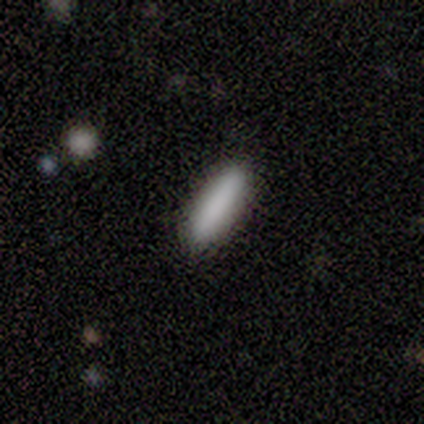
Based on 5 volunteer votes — smooth-or-featured: smooth: 100% | featured or disk: 0% | star or artifact: 0%
  how-rounded: in between: 60% | cigar-shaped: 40% | round: 0%
  merging: none: 100% | minor disturbance: 0% | major disturbance: 0% | merger: 0%